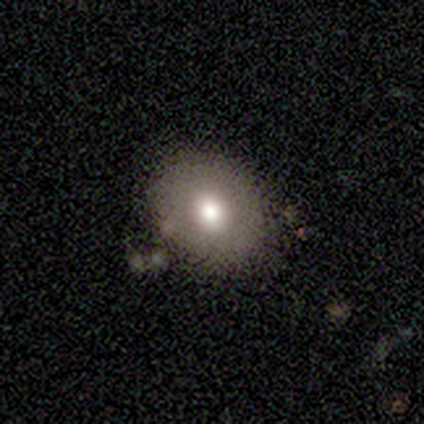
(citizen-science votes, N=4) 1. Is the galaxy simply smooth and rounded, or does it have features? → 75% smooth, 25% featured or disk, 0% star or artifact.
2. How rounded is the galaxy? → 100% round, 0% in between, 0% cigar-shaped.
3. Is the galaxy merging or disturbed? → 50% none (tied), 50% minor disturbance (tied), 0% major disturbance, 0% merger.